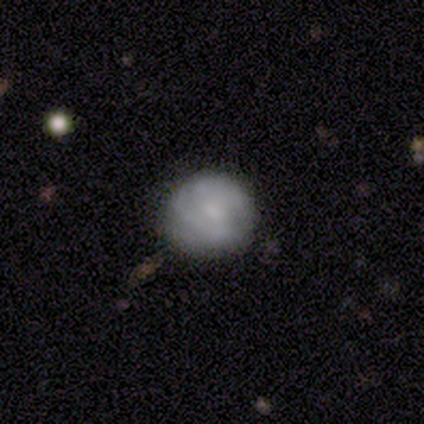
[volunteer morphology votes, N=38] Volunteers were most divided on "smooth or featured": featured or disk: 53%, smooth: 47%, star or artifact: 0%. More confident: edge-on disk — no (100%); merging — none (68%); spiral arms — no (60%); bar — no (60%); bulge size — small (50%).